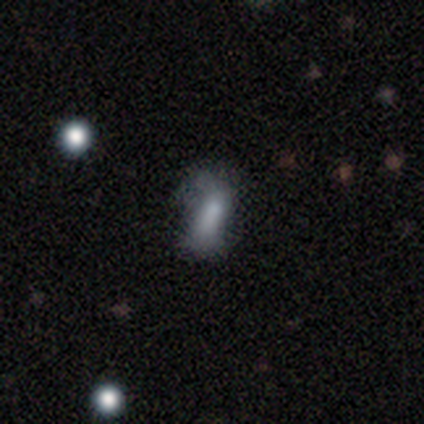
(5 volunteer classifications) A smooth galaxy with no disk features (80%) that is in between round and cigar-shaped (100%). Merging: none (40%, tied with minor disturbance).